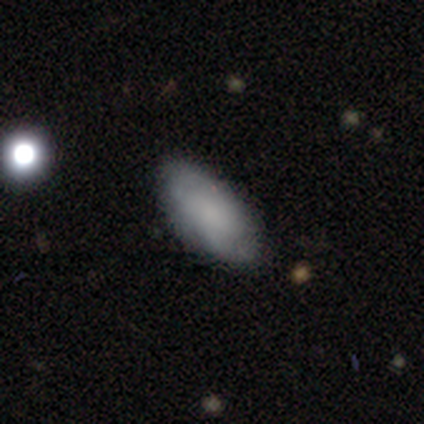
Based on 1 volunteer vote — Smooth or featured? 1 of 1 (100%) said smooth. How rounded? 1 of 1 (100%) said in between. Merging? 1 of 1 (100%) said none.